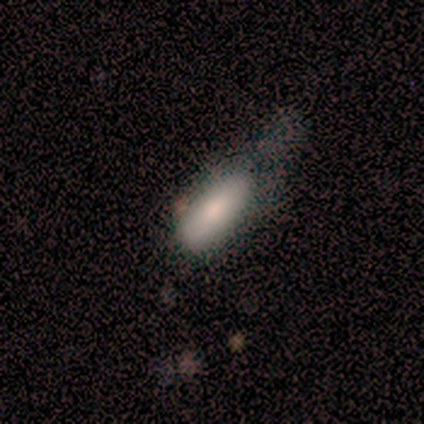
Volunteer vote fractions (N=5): Smooth or featured? 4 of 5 (80%) said smooth. How rounded? 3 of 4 (75%) said in between. Merging? 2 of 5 (40%) said minor disturbance.